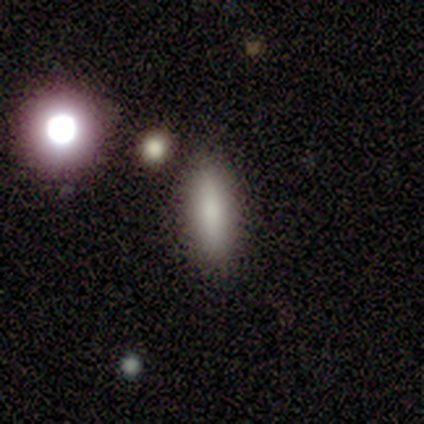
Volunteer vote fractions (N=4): This appears to be a smooth galaxy with no disk features (100%) that is in between round and cigar-shaped (75%). Merging: none (100%).